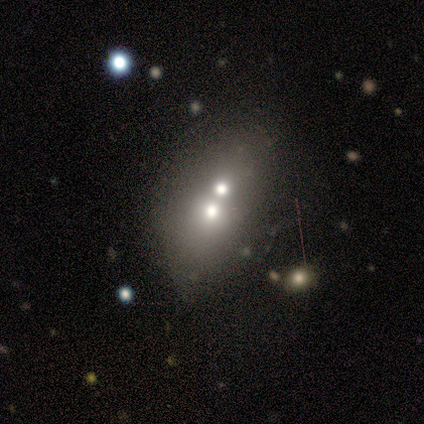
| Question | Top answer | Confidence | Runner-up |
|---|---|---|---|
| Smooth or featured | featured or disk | 60% | smooth (40%) |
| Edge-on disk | no | 67% | yes (33%) |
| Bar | weak | 50% | tied: no (50%) |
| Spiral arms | no | 100% | — |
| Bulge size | moderate | 50% | tied: small (50%) |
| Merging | merger | 80% | minor disturbance (20%) |